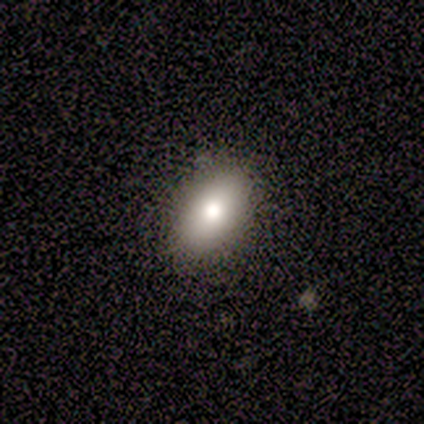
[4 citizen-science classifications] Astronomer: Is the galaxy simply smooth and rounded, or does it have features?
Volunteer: smooth — 100%.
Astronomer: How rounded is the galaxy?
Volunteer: in between — 100%.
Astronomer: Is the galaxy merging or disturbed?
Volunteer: none — 75%.